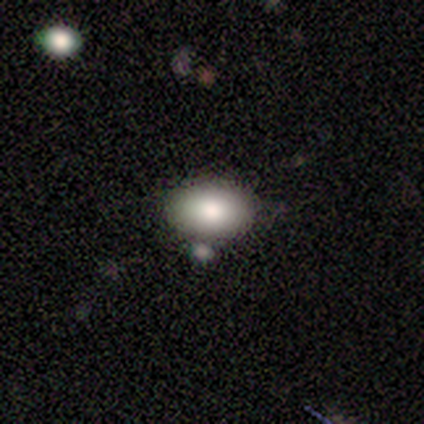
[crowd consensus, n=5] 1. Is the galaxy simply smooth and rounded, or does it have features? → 100% smooth, 0% featured or disk, 0% star or artifact.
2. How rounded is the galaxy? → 60% in between, 40% round, 0% cigar-shaped.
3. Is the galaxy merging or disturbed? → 60% none, 40% minor disturbance, 0% major disturbance, 0% merger.